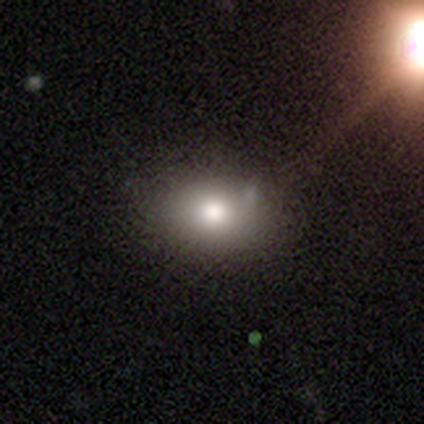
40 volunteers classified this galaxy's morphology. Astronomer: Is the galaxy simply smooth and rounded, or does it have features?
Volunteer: smooth — 80%.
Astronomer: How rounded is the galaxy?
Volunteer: in between — 66%.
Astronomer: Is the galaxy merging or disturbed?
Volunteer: none — 69%.